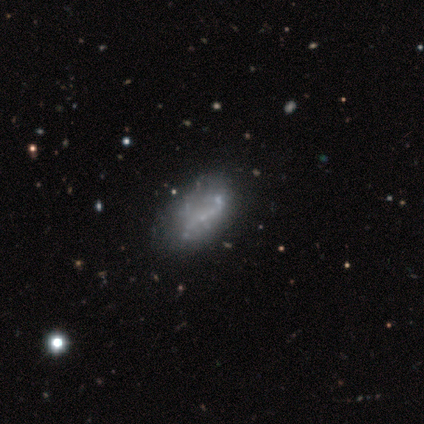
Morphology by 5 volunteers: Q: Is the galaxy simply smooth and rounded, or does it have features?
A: featured or disk — 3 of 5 (60%).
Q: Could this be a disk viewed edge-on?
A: no — 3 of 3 (100%).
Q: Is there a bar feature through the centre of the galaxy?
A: no — 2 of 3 (67%).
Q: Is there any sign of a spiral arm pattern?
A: no — 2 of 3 (67%).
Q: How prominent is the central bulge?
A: small — 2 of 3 (67%).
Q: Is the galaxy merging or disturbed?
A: minor disturbance — 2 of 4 (50%, tied with major disturbance).